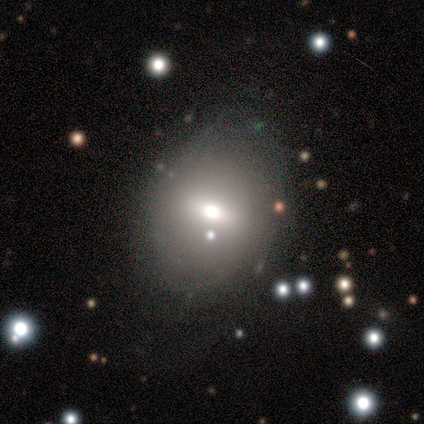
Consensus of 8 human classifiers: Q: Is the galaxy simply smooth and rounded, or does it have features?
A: smooth — 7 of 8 (88%).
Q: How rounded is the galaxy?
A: in between — 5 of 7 (71%).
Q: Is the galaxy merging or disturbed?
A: none — 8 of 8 (100%).